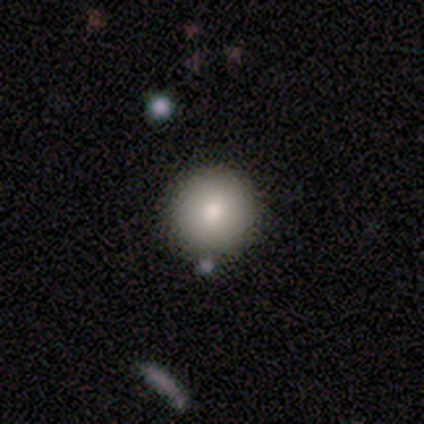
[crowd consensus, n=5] Overall: smooth (100%). How rounded: round (100%). Merging: none (80%).